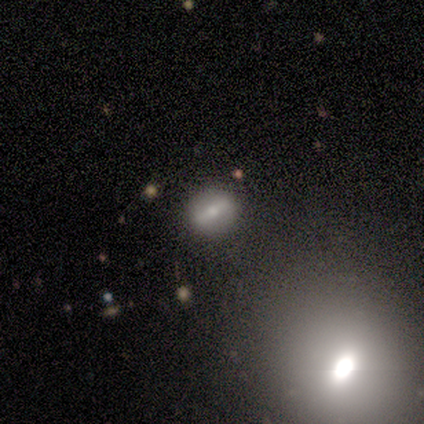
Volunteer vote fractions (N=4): Smooth or featured? featured or disk (75%)
Edge-on disk? no (100%)
Bar? strong (100%)
Spiral arms? no (67%)
Bulge size? small (67%)
Merging? none (50%)